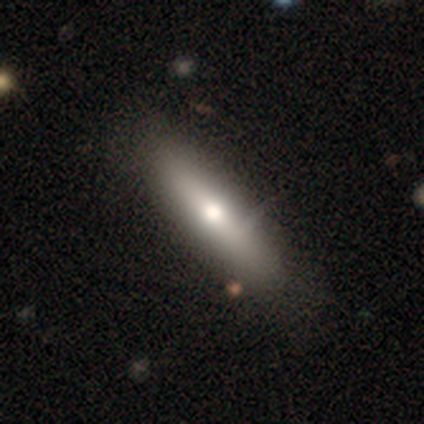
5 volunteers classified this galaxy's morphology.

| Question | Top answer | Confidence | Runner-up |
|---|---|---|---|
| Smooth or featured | smooth | 60% | featured or disk (40%) |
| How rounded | in between | 67% | cigar-shaped (33%) |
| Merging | none | 80% | major disturbance (20%) |